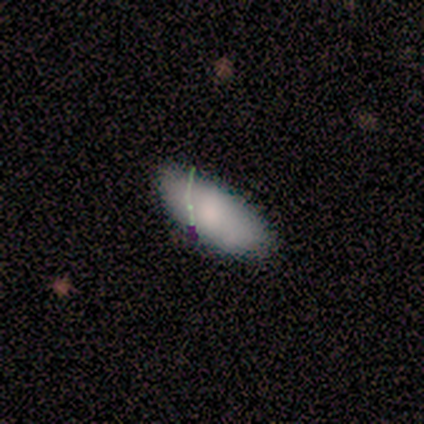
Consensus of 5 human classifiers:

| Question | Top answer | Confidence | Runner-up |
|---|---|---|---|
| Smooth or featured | smooth | 80% | star or artifact (20%) |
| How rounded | in between | 100% | — |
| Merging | none | 100% | — |